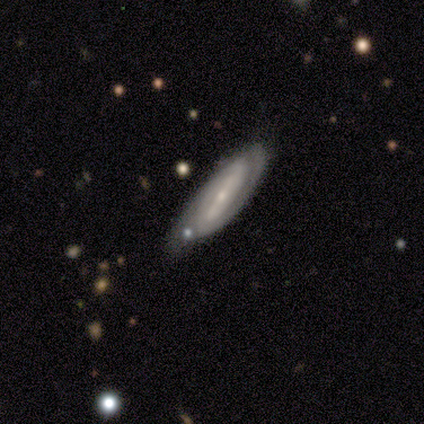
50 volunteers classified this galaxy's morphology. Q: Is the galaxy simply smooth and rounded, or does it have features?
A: featured or disk — 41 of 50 (82%).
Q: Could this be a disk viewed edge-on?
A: no — 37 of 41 (90%).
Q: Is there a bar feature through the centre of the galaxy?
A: strong — 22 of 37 (59%).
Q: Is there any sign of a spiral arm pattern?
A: yes — 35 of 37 (95%).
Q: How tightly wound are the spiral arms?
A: tight — 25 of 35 (71%).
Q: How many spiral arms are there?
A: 2 — 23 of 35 (66%).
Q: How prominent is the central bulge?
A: small — 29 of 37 (78%).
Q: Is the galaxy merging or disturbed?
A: none — 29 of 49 (59%).